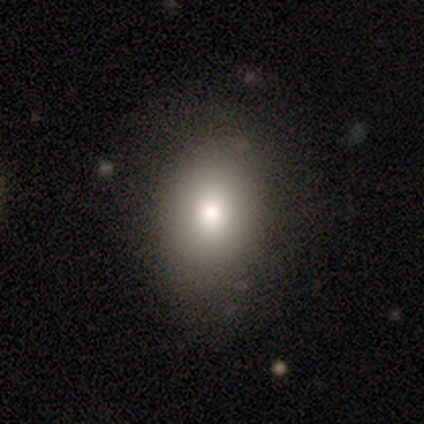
Overall: smooth (80%). How rounded: round (50%, tied with in between). Merging: none (100%).